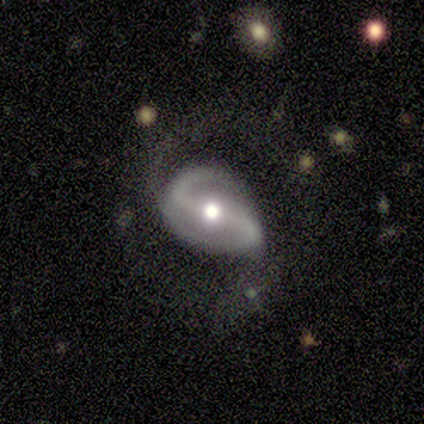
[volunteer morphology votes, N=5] type=featured or disk (60%); edge-on=no (100%); bar=strong (100%); spiral arms=yes (100%); winding=loose (67%); arm count=2 (100%); bulge=moderate (100%); merging=none (50%, tied with major disturbance).